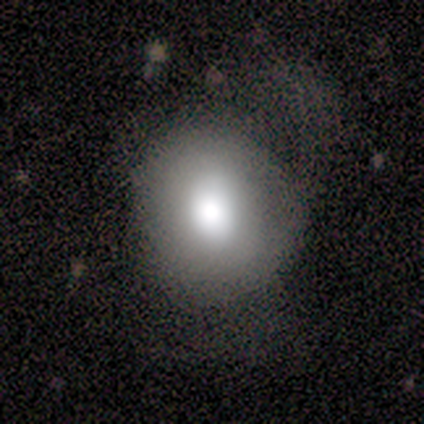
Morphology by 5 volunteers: Smooth or featured? 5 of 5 (100%) said smooth. How rounded? 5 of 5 (100%) said round. Merging? 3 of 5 (60%) said none.